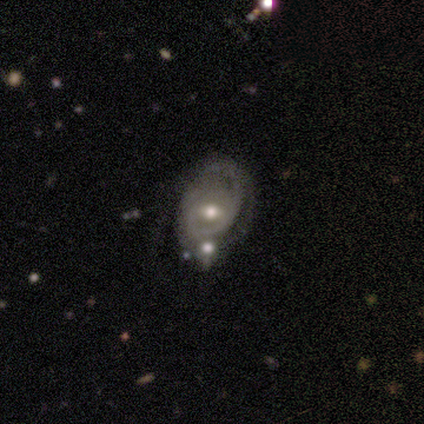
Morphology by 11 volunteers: Q: Smooth or featured?
A: featured or disk (91%); runner-up: smooth (9%)
Q: Edge-on disk?
A: no (100%)
Q: Bar?
A: weak (50%); runner-up: strong (30%)
Q: Spiral arms?
A: yes (60%); runner-up: no (40%)
Q: Spiral winding?
A: tight (33%); tied with: medium (33%); loose (33%)
Q: Spiral arm count?
A: 2 (50%); runner-up: can't tell (33%)
Q: Bulge size?
A: moderate (60%); runner-up: small (40%)
Q: Merging?
A: minor disturbance (36%); runner-up: none (27%)